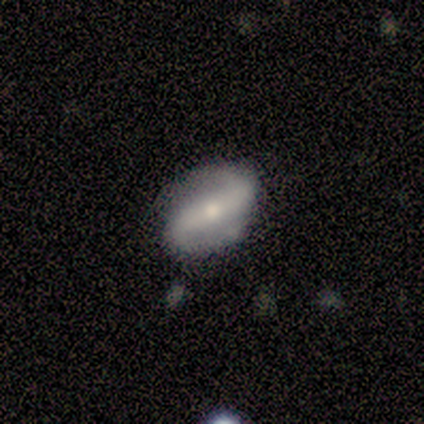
Smooth or featured?
  - featured or disk: 100% *
  - smooth: 0%
  - star or artifact: 0%
Edge-on disk?
  - no: 100% *
  - yes: 0%
Bar?
  - strong: 40% * (tied)
  - no: 40% * (tied)
  - weak: 20%
Spiral arms?
  - yes: 100% *
  - no: 0%
Spiral winding?
  - loose: 60% *
  - medium: 40%
  - tight: 0%
Spiral arm count?
  - 2: 100% *
  - 1: 0%
  - 3: 0%
  - 4: 0%
  - more than 4: 0%
  - can't tell: 0%
Bulge size?
  - small: 80% *
  - moderate: 20%
  - dominant: 0%
  - large: 0%
  - none: 0%
Merging?
  - none: 100% *
  - minor disturbance: 0%
  - major disturbance: 0%
  - merger: 0%